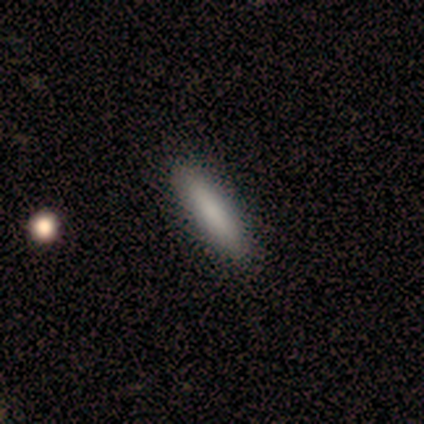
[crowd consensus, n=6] Smooth or featured: smooth — 67% (featured or disk — 17%)
How rounded: cigar-shaped — 75% (in between — 25%)
Merging: none — 60% (minor disturbance — 40%)